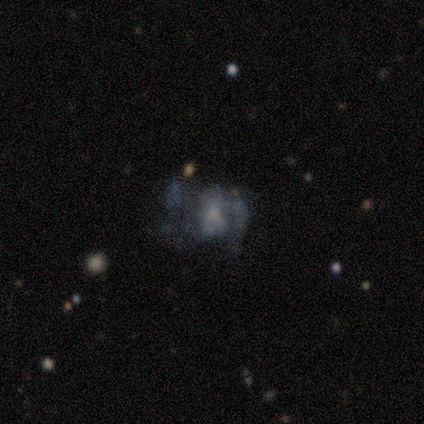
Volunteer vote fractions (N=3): Q: Smooth or featured?
A: featured or disk (100%)
Q: Edge-on disk?
A: no (100%)
Q: Bar?
A: no (100%)
Q: Spiral arms?
A: yes (67%); runner-up: no (33%)
Q: Spiral winding?
A: medium (50%); tied with: loose (50%)
Q: Spiral arm count?
A: 2 (50%); tied with: can't tell (50%)
Q: Bulge size?
A: small (67%); runner-up: moderate (33%)
Q: Merging?
A: none (67%); runner-up: major disturbance (33%)